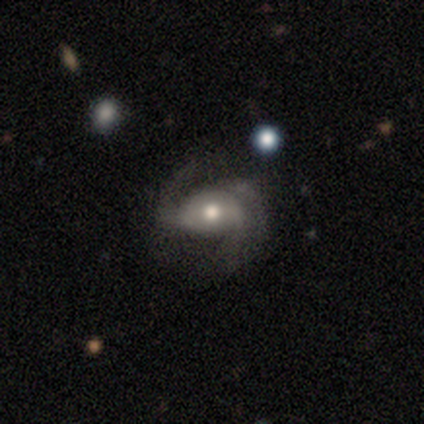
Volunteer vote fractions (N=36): Q: Smooth or featured?
A: featured or disk (81%); runner-up: smooth (11%)
Q: Edge-on disk?
A: no (93%); runner-up: yes (7%)
Q: Bar?
A: weak (52%); runner-up: no (41%)
Q: Spiral arms?
A: yes (96%); runner-up: no (4%)
Q: Spiral winding?
A: loose (58%); runner-up: medium (38%)
Q: Spiral arm count?
A: 2 (81%); runner-up: can't tell (12%)
Q: Bulge size?
A: moderate (81%); runner-up: small (11%)
Q: Merging?
A: none (76%); runner-up: major disturbance (12%)